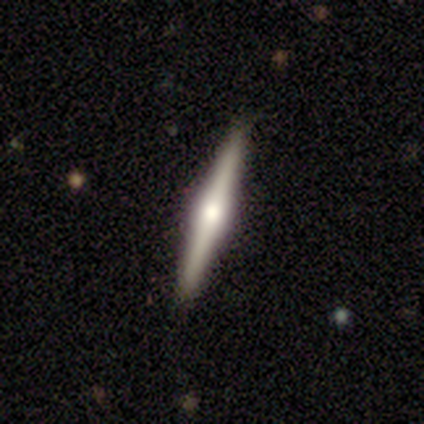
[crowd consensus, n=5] smooth_or_featured: featured or disk (p=0.80) [alt: smooth p=0.20]
disk_edge_on: yes (p=1.00)
edge_on_bulge: rounded (p=0.75) [alt: boxy p=0.25]
merging: none (p=0.80) [alt: minor disturbance p=0.20]